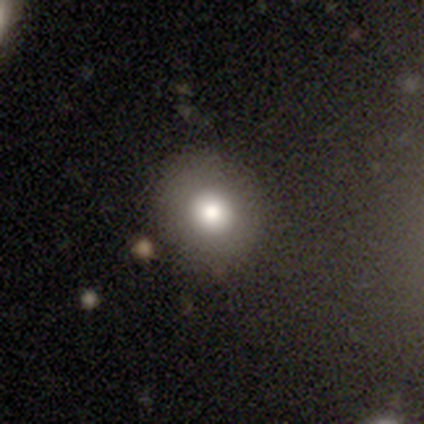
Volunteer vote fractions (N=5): This appears to be a smooth galaxy with no disk features (100%) that is round (100%). Merging: none (80%).